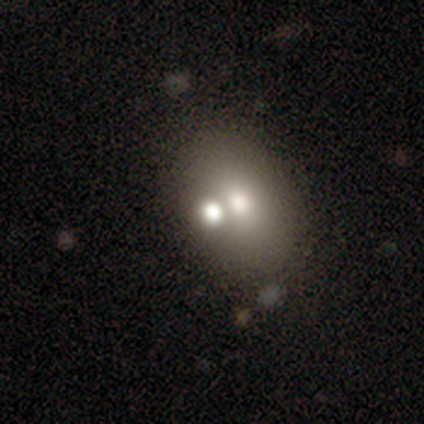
A smooth galaxy with no disk features (64%) that is in between round and cigar-shaped (80%). Merging: none (57%).